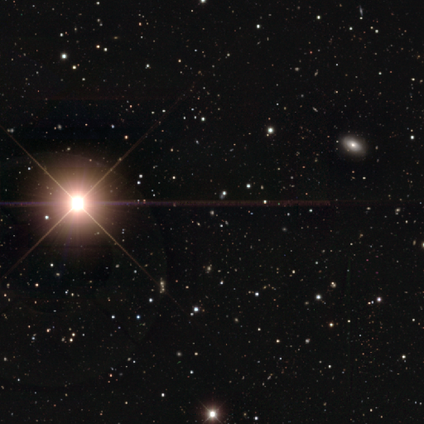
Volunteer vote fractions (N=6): Consensus on every question: smooth or featured — star or artifact (100%).